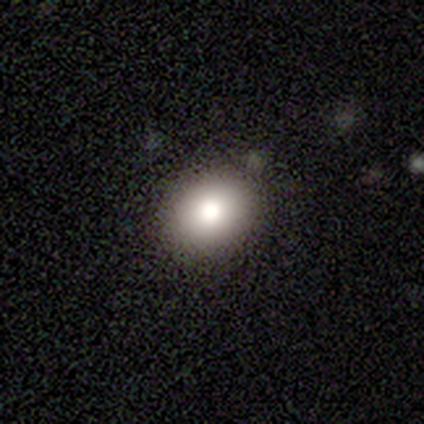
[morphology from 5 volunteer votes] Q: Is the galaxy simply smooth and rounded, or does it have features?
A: smooth — 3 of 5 (60%).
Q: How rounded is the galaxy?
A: round — 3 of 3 (100%).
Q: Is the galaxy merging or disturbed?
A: none — 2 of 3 (67%).